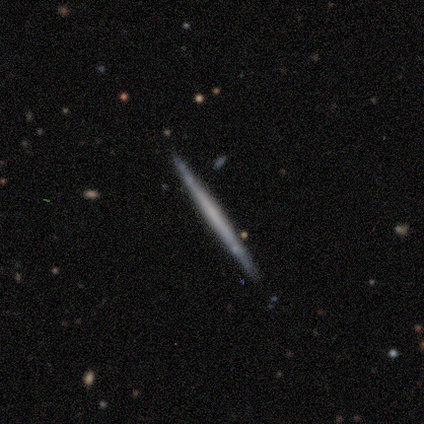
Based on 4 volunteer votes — A smooth galaxy with no disk features (50%, tied with featured or disk) that is cigar-shaped (100%).

Vote fractions:
- Smooth or featured? smooth: 50% (tied) / featured or disk: 50% (tied) / star or artifact: 0%
- How rounded? cigar-shaped: 100% / round: 0% / in between: 0%
- Merging? none: 100% / minor disturbance: 0% / major disturbance: 0% / merger: 0%